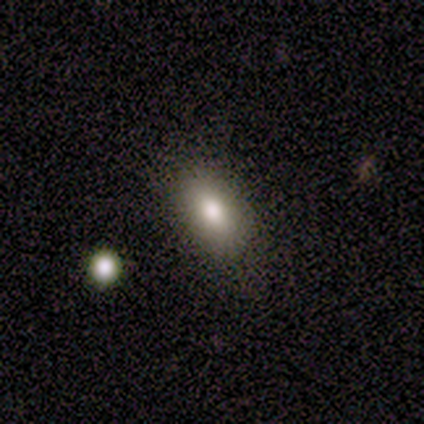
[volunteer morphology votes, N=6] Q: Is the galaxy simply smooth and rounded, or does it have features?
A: smooth — 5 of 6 (83%).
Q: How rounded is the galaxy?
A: in between — 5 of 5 (100%).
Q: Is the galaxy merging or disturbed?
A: none — 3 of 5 (60%).